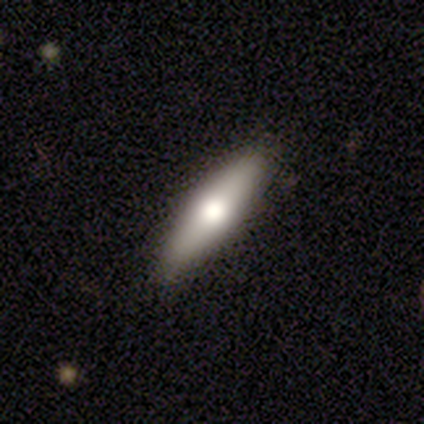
Smooth or featured? featured or disk (62%)
Edge-on disk? yes (100%)
Edge-on bulge? rounded (100%)
Merging? none (88%)